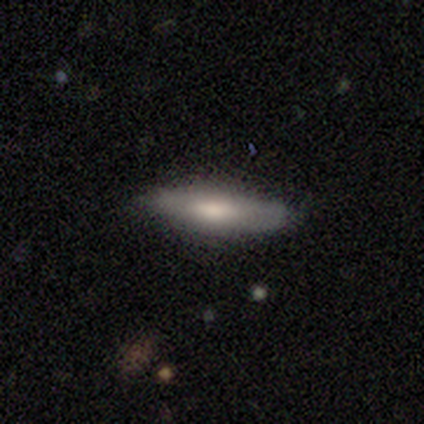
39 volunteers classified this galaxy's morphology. type=smooth (69%); roundness=cigar-shaped (70%); merging=none (94%).